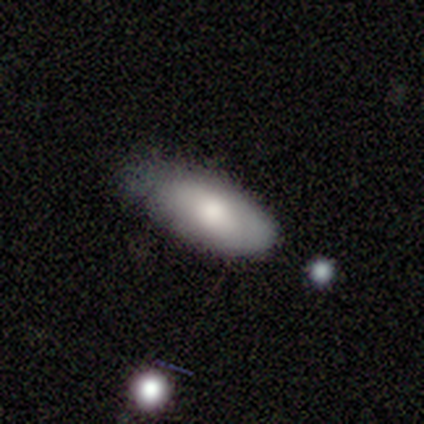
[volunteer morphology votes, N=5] Volunteers were most divided on "how rounded": in between: 75%, cigar-shaped: 25%, round: 0%. More confident: smooth or featured — smooth (80%); merging — none (80%).